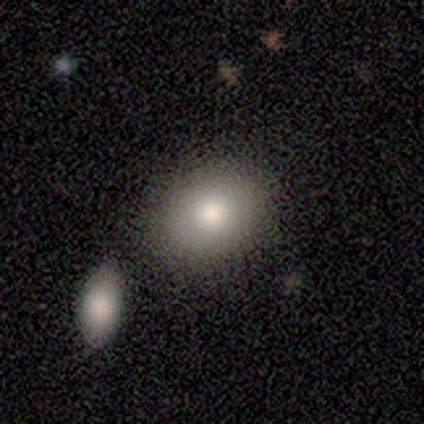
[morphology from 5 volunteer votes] star or artifact 60%, smooth 40%, featured or disk 0%.